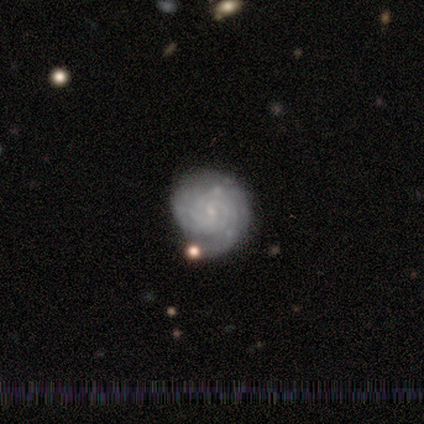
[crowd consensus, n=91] Volunteers were most divided on "spiral arm count": can't tell: 32%, 2: 27%, 3: 19%, 4: 9%, more than 4: 8%, 1: 4%. More confident: edge-on disk — no (99%); spiral arms — yes (97%); bulge size — small (86%); smooth or featured — featured or disk (85%); spiral winding — tight (84%); merging — none (67%); bar — no (62%).